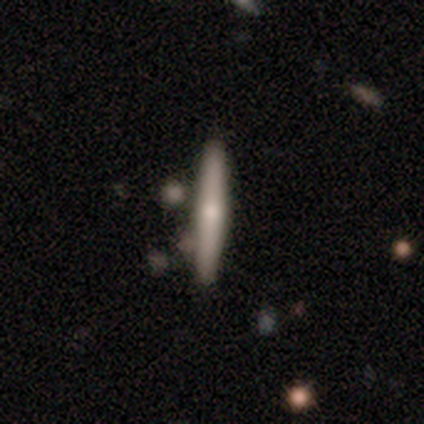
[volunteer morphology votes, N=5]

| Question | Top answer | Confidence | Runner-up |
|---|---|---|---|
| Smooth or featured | featured or disk | 80% | smooth (20%) |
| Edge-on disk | yes | 100% | — |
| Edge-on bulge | rounded | 100% | — |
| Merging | none | 60% | minor disturbance (40%) |